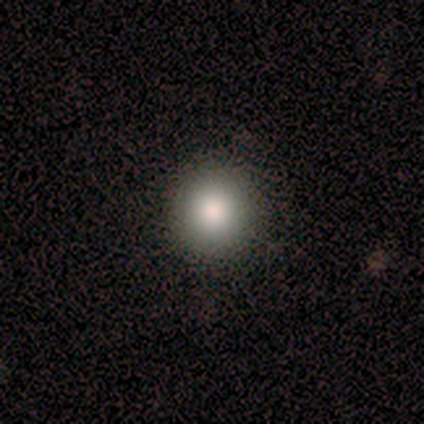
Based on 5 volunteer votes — A smooth galaxy with no disk features (100%) that is round (100%). Merging: none (80%).